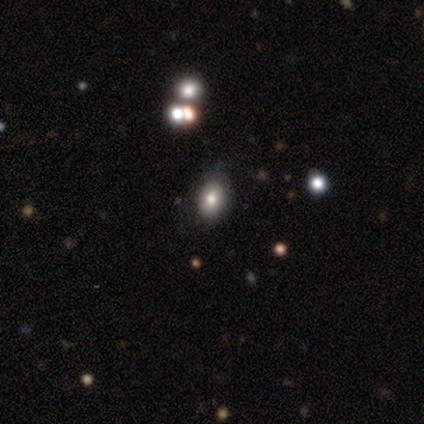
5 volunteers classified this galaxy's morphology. smooth_or_featured: smooth (p=0.60) [alt: featured or disk p=0.20]
how_rounded: in between (p=0.67) [alt: round p=0.33]
merging: none (p=0.75) [alt: minor disturbance p=0.25]